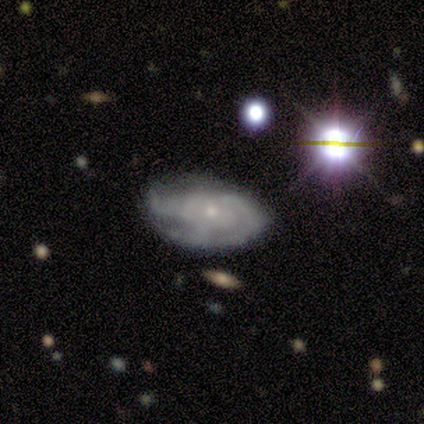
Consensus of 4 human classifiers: Smooth or featured?
  - featured or disk: 100% *
  - smooth: 0%
  - star or artifact: 0%
Edge-on disk?
  - no: 100% *
  - yes: 0%
Bar?
  - no: 75% *
  - weak: 25%
  - strong: 0%
Spiral arms?
  - yes: 75% *
  - no: 25%
Spiral winding?
  - medium: 67% *
  - loose: 33%
  - tight: 0%
Spiral arm count?
  - 2: 67% *
  - can't tell: 33%
  - 1: 0%
  - 3: 0%
  - 4: 0%
  - more than 4: 0%
Bulge size?
  - small: 75% *
  - moderate: 25%
  - dominant: 0%
  - large: 0%
  - none: 0%
Merging?
  - minor disturbance: 75% *
  - none: 25%
  - major disturbance: 0%
  - merger: 0%